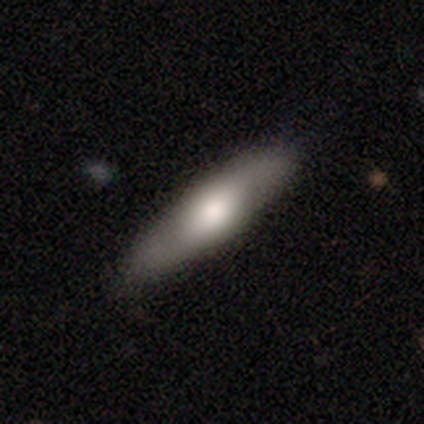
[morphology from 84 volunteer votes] Overall: smooth (51%; featured or disk 46%). How rounded: cigar-shaped (77%). Merging: none (90%).